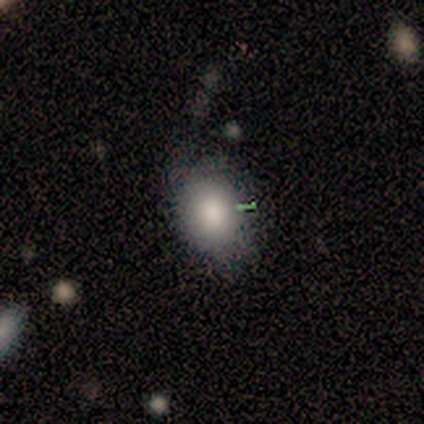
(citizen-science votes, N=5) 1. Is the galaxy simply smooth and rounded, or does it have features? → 80% smooth, 20% featured or disk, 0% star or artifact.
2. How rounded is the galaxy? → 50% round (tied), 50% in between (tied), 0% cigar-shaped.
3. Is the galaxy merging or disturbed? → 60% none, 20% minor disturbance, 20% major disturbance, 0% merger.